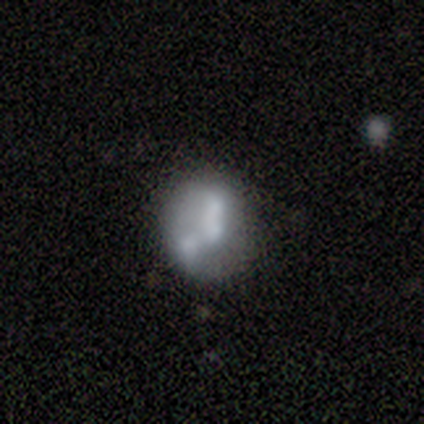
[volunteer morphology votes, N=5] smooth-or-featured: smooth: 80% | featured or disk: 20% | star or artifact: 0%
  how-rounded: round: 75% | in between: 25% | cigar-shaped: 0%
  merging: none: 60% | merger: 40% | minor disturbance: 0% | major disturbance: 0%